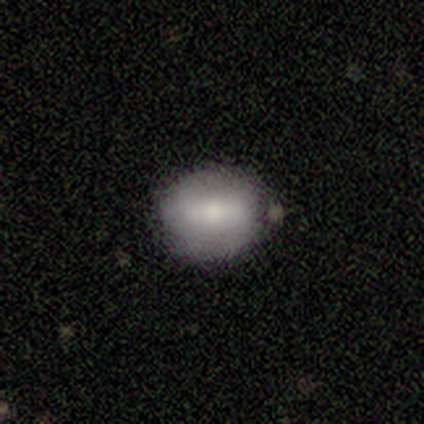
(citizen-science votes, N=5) Smooth or featured: smooth — 60% (featured or disk — 40%)
How rounded: round — 67% (in between — 33%)
Merging: none — 100%